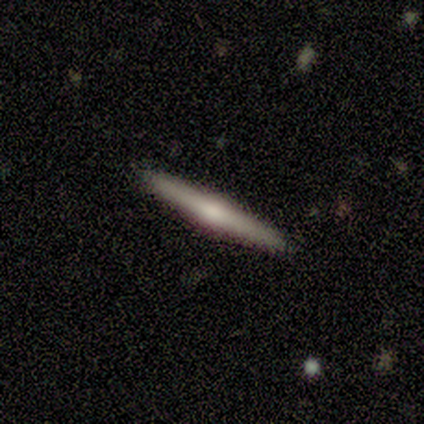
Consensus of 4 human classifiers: Morphology: type=featured or disk (75%); edge-on=yes (100%); edge-on bulge=rounded (67%); merging=none (100%).